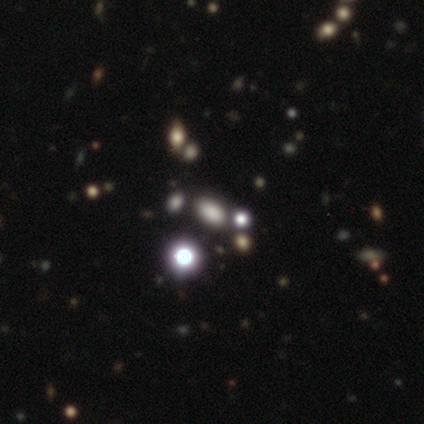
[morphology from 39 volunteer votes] smooth-or-featured: smooth: 46% (tied) | star or artifact: 46% (tied) | featured or disk: 8%
  how-rounded: in between: 89% | round: 11% | cigar-shaped: 0%
  merging: none: 81% | minor disturbance: 14% | merger: 5% | major disturbance: 0%